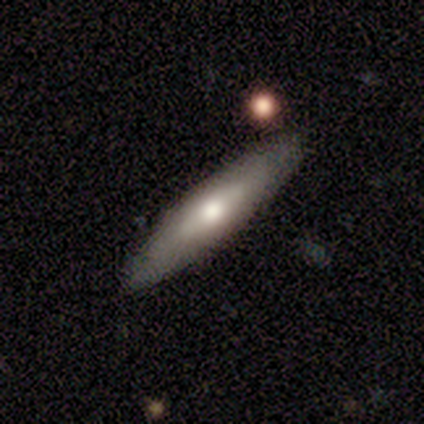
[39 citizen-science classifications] smooth-or-featured: smooth: 54% | featured or disk: 38% | star or artifact: 8%
  how-rounded: cigar-shaped: 81% | in between: 19% | round: 0%
  merging: none: 86% | major disturbance: 8% | minor disturbance: 6% | merger: 0%